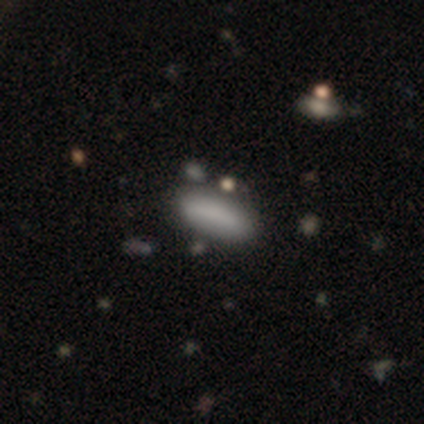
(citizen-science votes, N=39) A smooth galaxy with no disk features (79%) that is in between round and cigar-shaped (65%). Merging: none (76%).